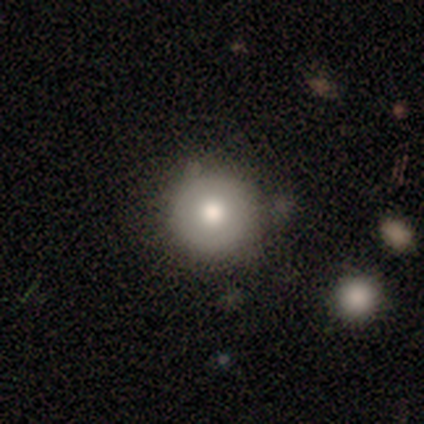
Morphology: type=smooth (80%); roundness=round (100%); merging=none (80%).